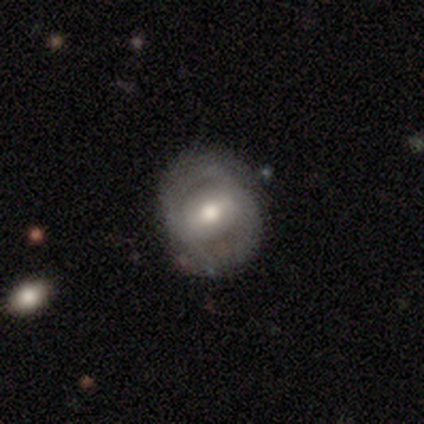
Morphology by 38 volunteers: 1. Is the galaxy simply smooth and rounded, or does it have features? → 79% featured or disk, 18% smooth, 3% star or artifact.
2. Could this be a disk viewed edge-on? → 97% no, 3% yes.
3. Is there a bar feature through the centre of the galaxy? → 48% weak, 34% strong, 17% no.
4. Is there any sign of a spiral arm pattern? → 90% yes, 10% no.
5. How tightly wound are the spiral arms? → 42% tight (tied), 42% medium (tied), 15% loose.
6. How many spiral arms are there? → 81% 2, 12% can't tell, 8% 3, 0% 1, 0% 4, 0% more than 4.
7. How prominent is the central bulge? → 79% moderate, 14% large, 7% small, 0% dominant, 0% none.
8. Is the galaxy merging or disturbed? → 76% none, 11% major disturbance, 8% minor disturbance, 5% merger.